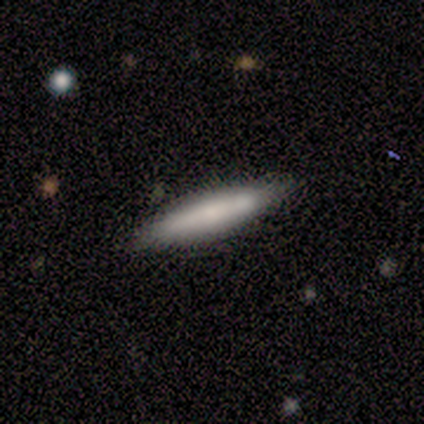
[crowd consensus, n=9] Smooth or featured?
  - smooth: 67% *
  - featured or disk: 22%
  - star or artifact: 11%
How rounded?
  - cigar-shaped: 83% *
  - in between: 17%
  - round: 0%
Merging?
  - none: 100% *
  - minor disturbance: 0%
  - major disturbance: 0%
  - merger: 0%